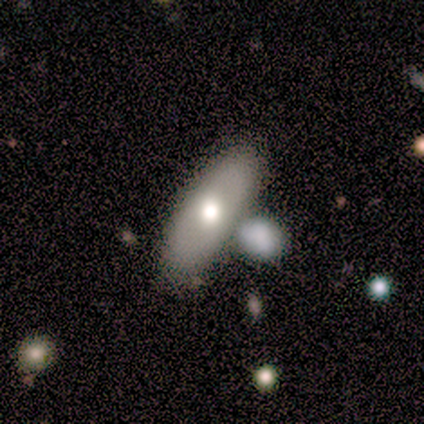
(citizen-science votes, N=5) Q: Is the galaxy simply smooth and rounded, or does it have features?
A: smooth — 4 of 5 (80%).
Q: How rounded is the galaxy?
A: cigar-shaped — 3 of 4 (75%).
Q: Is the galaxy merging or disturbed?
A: none — 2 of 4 (50%).